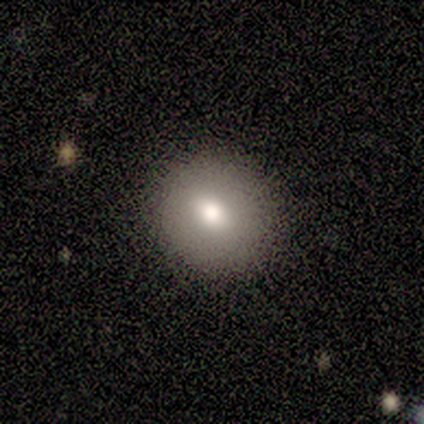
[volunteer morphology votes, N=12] Smooth or featured?
  - smooth: 58% *
  - featured or disk: 25%
  - star or artifact: 17%
How rounded?
  - round: 86% *
  - in between: 14%
  - cigar-shaped: 0%
Merging?
  - none: 100% *
  - minor disturbance: 0%
  - major disturbance: 0%
  - merger: 0%